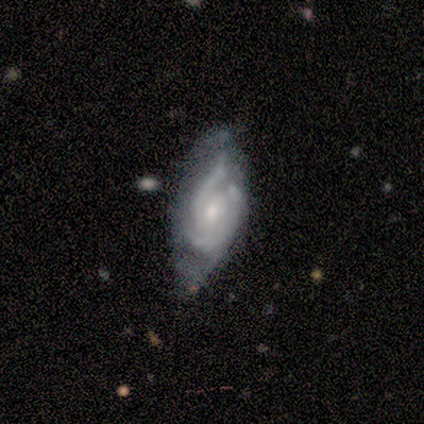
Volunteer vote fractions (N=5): Smooth or featured?
  - featured or disk: 80% *
  - smooth: 20%
  - star or artifact: 0%
Edge-on disk?
  - no: 100% *
  - yes: 0%
Bar?
  - weak: 75% *
  - no: 25%
  - strong: 0%
Spiral arms?
  - yes: 75% *
  - no: 25%
Spiral winding?
  - tight: 67% *
  - medium: 33%
  - loose: 0%
Spiral arm count?
  - 3: 67% *
  - can't tell: 33%
  - 1: 0%
  - 2: 0%
  - 4: 0%
  - more than 4: 0%
Bulge size?
  - small: 75% *
  - moderate: 25%
  - dominant: 0%
  - large: 0%
  - none: 0%
Merging?
  - none: 40% * (tied)
  - minor disturbance: 40% * (tied)
  - merger: 20%
  - major disturbance: 0%